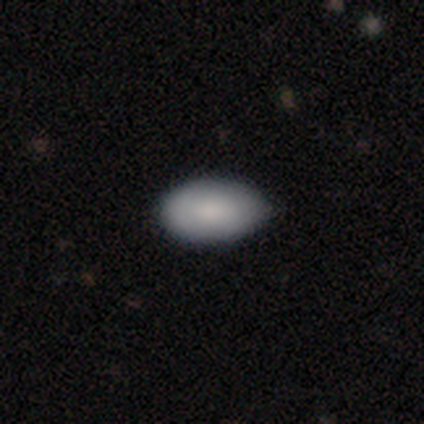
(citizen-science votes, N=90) Overall: smooth (88%). How rounded: in between (89%). Merging: none (62%; minor disturbance 35%).